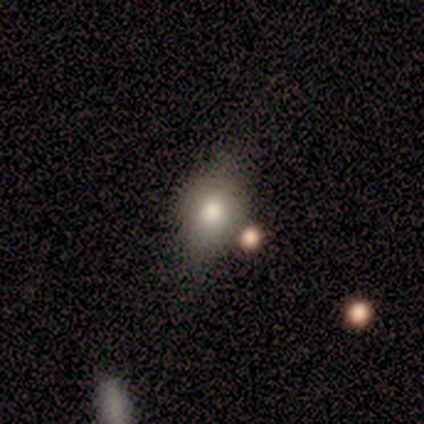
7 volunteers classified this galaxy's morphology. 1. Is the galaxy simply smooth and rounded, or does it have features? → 86% smooth, 14% featured or disk, 0% star or artifact.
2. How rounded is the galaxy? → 83% in between, 17% round, 0% cigar-shaped.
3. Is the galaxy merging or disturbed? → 57% none, 43% minor disturbance, 0% major disturbance, 0% merger.